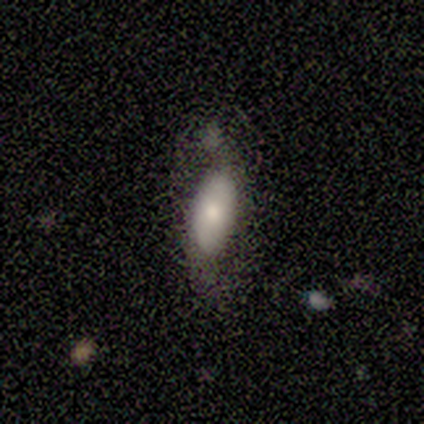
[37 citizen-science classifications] Smooth or featured? 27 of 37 (73%) said smooth. How rounded? 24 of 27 (89%) said in between. Merging? 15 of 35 (43%) said none.